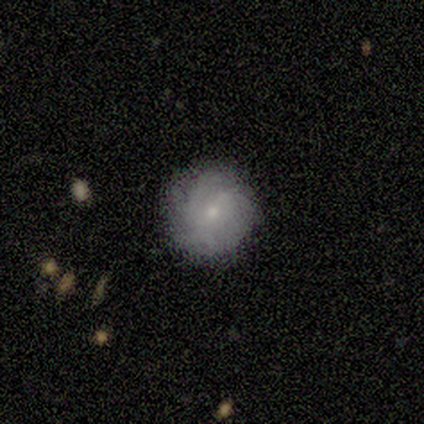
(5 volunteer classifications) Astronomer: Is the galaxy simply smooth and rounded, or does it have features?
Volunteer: smooth — 60% (runner-up: featured or disk, 40%).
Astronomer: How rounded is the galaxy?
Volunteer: round — 100%.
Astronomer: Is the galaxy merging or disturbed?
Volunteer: none — 60%.